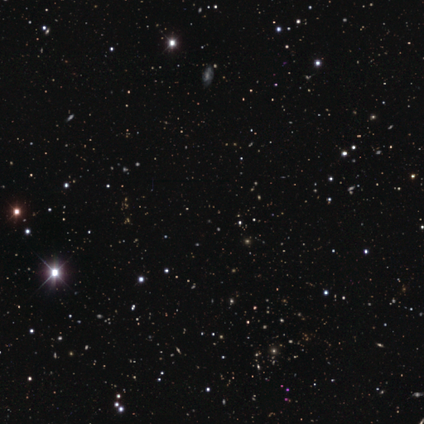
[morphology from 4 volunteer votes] smooth-or-featured: star or artifact: 100% | smooth: 0% | featured or disk: 0%